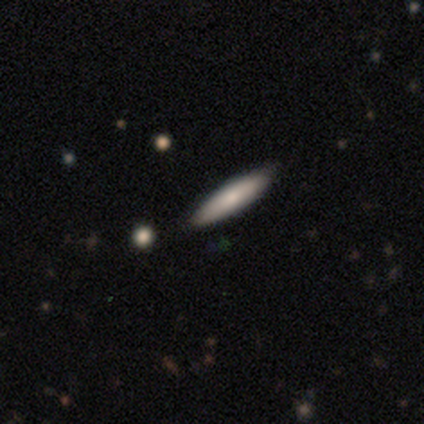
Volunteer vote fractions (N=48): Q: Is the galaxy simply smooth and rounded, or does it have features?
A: smooth — 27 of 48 (56%).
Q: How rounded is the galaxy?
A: cigar-shaped — 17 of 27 (63%).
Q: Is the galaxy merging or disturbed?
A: none — 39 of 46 (85%).